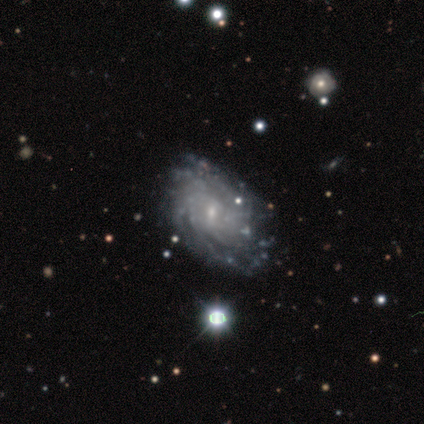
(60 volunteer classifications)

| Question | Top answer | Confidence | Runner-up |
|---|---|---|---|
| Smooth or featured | featured or disk | 88% | smooth (8%) |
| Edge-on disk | no | 98% | yes (2%) |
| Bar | no | 56% | weak (42%) |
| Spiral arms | yes | 94% | no (6%) |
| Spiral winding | tight | 73% | medium (22%) |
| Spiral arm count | more than 4 | 47% | can't tell (37%) |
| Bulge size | small | 85% | moderate (10%) |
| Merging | none | 57% | minor disturbance (14%) |